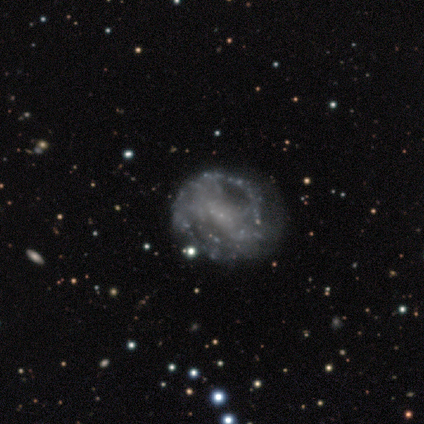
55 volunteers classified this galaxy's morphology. type=featured or disk (82%); edge-on=no (100%); bar=no (62%); spiral arms=yes (53%); winding=medium (46%); arm count=can't tell (75%); bulge=small (56%); merging=none (48%).